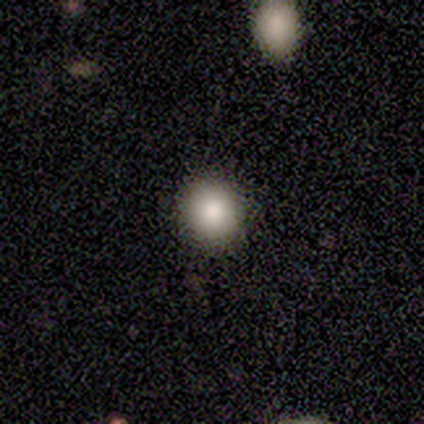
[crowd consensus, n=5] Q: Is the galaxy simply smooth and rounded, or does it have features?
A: smooth — 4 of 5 (80%).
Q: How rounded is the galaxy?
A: round — 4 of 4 (100%).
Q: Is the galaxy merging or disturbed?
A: none — 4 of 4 (100%).